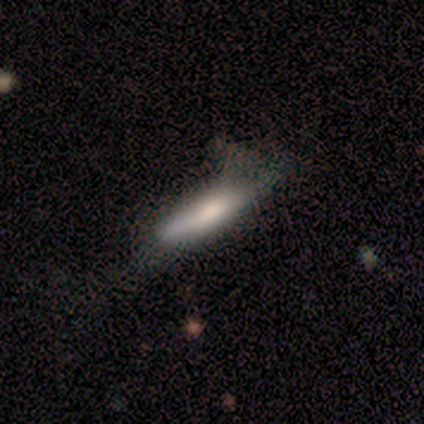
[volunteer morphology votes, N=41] Volunteers were most divided on "merging" (3-way tie): none: 33%, minor disturbance: 33%, major disturbance: 33%, merger: 0%. More confident: how rounded — cigar-shaped (72%); smooth or featured — smooth (61%).